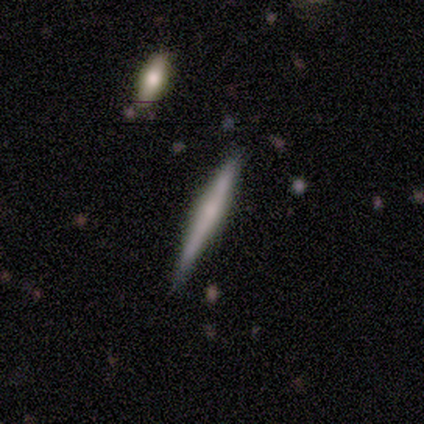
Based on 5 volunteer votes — smooth-or-featured: smooth: 80% | featured or disk: 20% | star or artifact: 0%
  how-rounded: cigar-shaped: 100% | round: 0% | in between: 0%
  merging: none: 60% | minor disturbance: 40% | major disturbance: 0% | merger: 0%